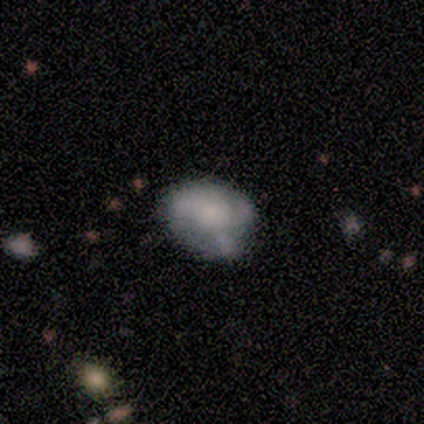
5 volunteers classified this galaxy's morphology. A featured or disk galaxy (80%) with no bar (100%), 1 (33%, tied with 2 and 3) tight (33%, tied with medium and loose) spiral arms (75%) and no central bulge (50%). Merging: none (40%).